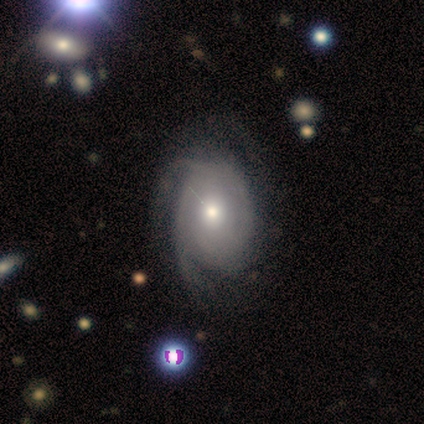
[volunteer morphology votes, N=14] Smooth or featured? featured or disk (64%)
Edge-on disk? no (100%)
Bar? no (78%)
Spiral arms? yes (100%)
Spiral winding? medium (44%)
Spiral arm count? can't tell (44%)
Bulge size? moderate (44%)
Merging? none (77%)